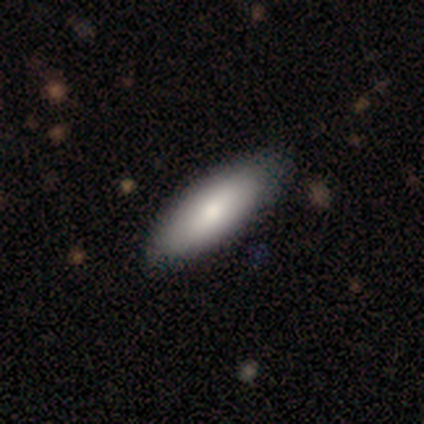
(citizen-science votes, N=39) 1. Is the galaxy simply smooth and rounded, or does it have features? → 92% smooth, 8% featured or disk, 0% star or artifact.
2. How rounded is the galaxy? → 92% in between, 8% cigar-shaped, 0% round.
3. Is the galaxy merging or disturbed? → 64% none, 5% minor disturbance, 3% major disturbance, 3% merger.